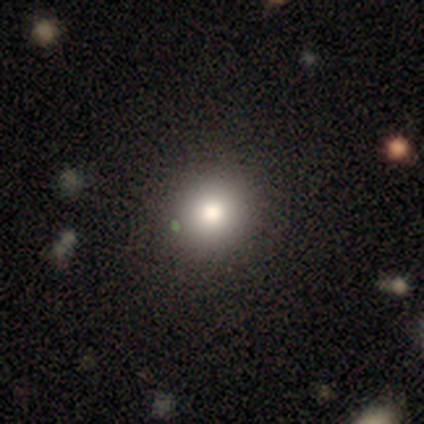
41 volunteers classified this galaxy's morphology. This appears to be a smooth galaxy with no disk features (73%) that is round (90%). Merging: none (84%).